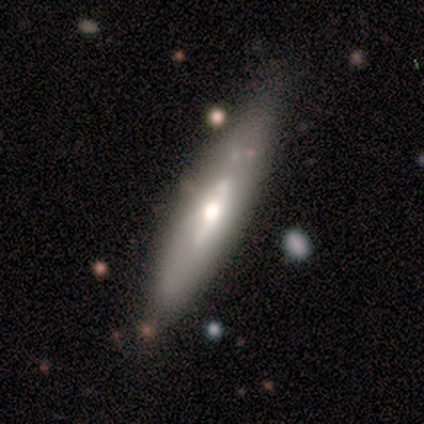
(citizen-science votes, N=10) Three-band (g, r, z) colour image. It shows a featured or disk galaxy (70%) with a strong bar (50%, tied with weak), no spiral arms (75%) and a moderate central bulge (75%). Merging: none (70%).